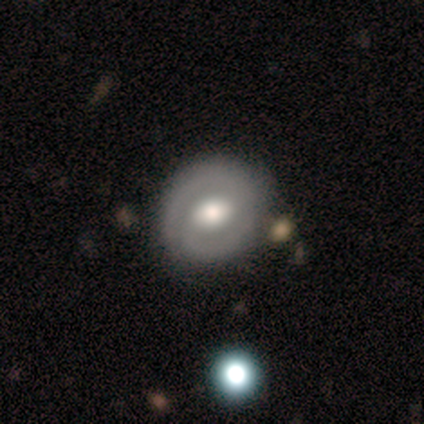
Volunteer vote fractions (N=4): This appears to be a featured or disk galaxy (50%) with a weak bar (50%, tied with no), 2 (100%) tight (100%) spiral arms (50%, tied with no) and a large central bulge (100%). Merging: none (67%).